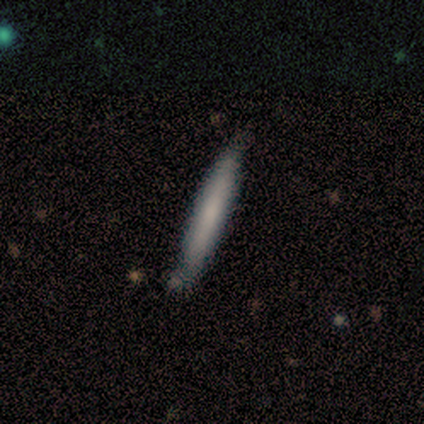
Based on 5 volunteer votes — Smooth or featured? smooth (80%)
How rounded? cigar-shaped (100%)
Merging? none (100%)